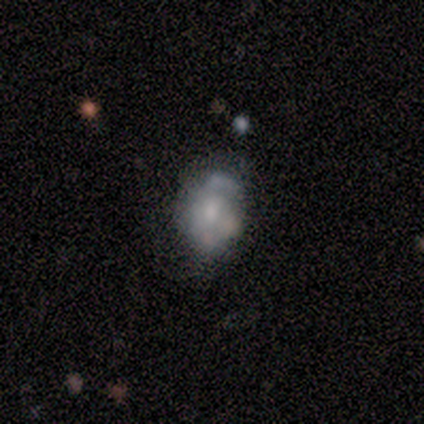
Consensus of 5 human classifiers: A smooth galaxy with no disk features (60%) that is in between round and cigar-shaped (67%).

Vote fractions:
- Smooth or featured? smooth: 60% / featured or disk: 40% / star or artifact: 0%
- How rounded? in between: 67% / round: 33% / cigar-shaped: 0%
- Merging? minor disturbance: 60% / none: 20% / major disturbance: 20% / merger: 0%